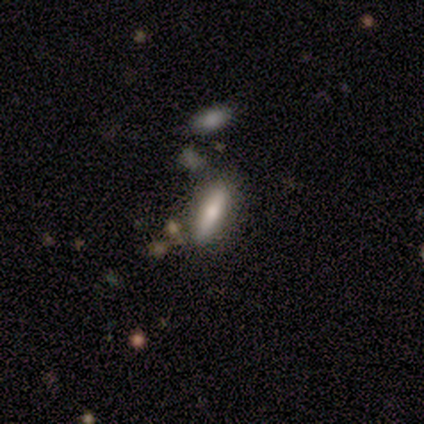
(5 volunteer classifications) smooth_or_featured: smooth (p=0.60) [alt: featured or disk p=0.20]
how_rounded: cigar-shaped (p=0.67) [alt: in between p=0.33]
merging: none (p=0.50) [alt: major disturbance p=0.25]